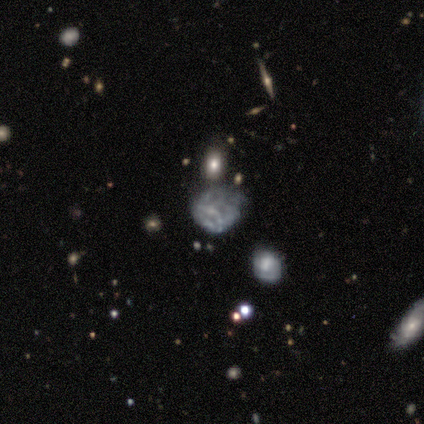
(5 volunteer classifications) Smooth or featured? 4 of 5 (80%) said featured or disk. Edge-on disk? 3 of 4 (75%) said no. Bar? 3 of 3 (100%) said no. Spiral arms? 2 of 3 (67%) said no. Bulge size? 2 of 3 (67%) said none. Merging? 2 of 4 (50%) said none.